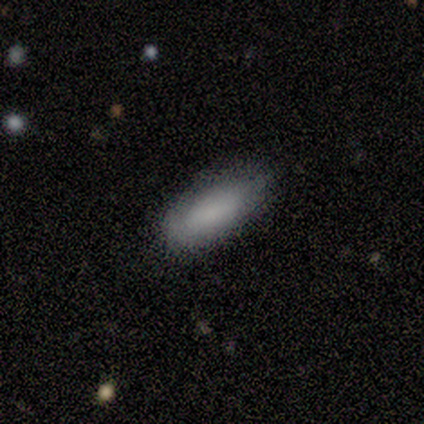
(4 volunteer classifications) A smooth galaxy with no disk features (100%) that is in between round and cigar-shaped (100%). Merging: none (100%).